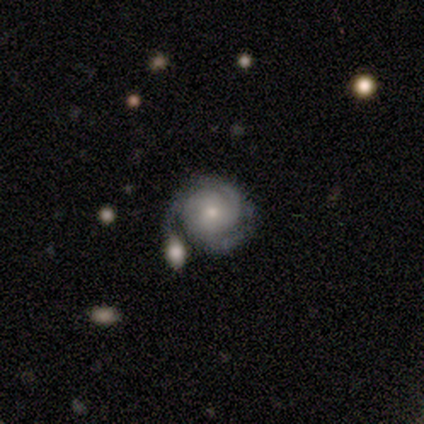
A featured or disk galaxy (100%) with no bar (100%), 3 (80%) tight (80%) spiral arms (100%) and a moderate central bulge (40%, tied with small).

Vote fractions:
- Smooth or featured? featured or disk: 100% / smooth: 0% / star or artifact: 0%
- Edge-on disk? no: 100% / yes: 0%
- Bar? no: 100% / strong: 0% / weak: 0%
- Spiral arms? yes: 100% / no: 0%
- Spiral winding? tight: 80% / loose: 20% / medium: 0%
- Spiral arm count? 3: 80% / 2: 20% / 1: 0% / 4: 0% / more than 4: 0% / can't tell: 0%
- Bulge size? moderate: 40% (tied) / small: 40% (tied) / dominant: 20% / large: 0% / none: 0%
- Merging? none: 100% / minor disturbance: 0% / major disturbance: 0% / merger: 0%